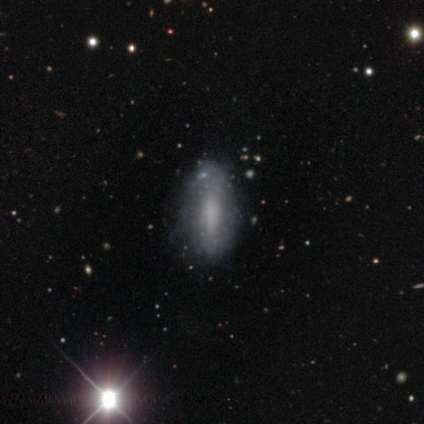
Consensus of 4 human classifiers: Smooth or featured? 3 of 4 (75%) said featured or disk. Edge-on disk? 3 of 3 (100%) said no. Bar? 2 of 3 (67%) said no. Spiral arms? 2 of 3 (67%) said yes. Spiral winding? 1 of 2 (50%, tied with medium) said tight. Spiral arm count? 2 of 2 (100%) said can't tell. Bulge size? 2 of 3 (67%) said none. Merging? 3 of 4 (75%) said none.